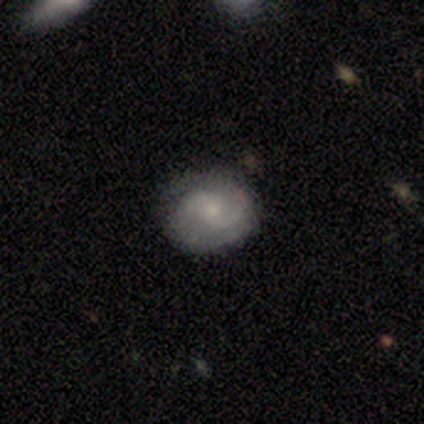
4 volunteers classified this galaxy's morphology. This is likely a featured or disk galaxy (75%). It is clearly not viewed edge-on (100%). Bar: likely weak (67%). Spiral arm pattern: clearly yes (100%). Spiral arm count: clearly 2 (100%). Spiral winding: likely medium (67%). Central bulge: likely small (67%). Merging: clearly none (100%).